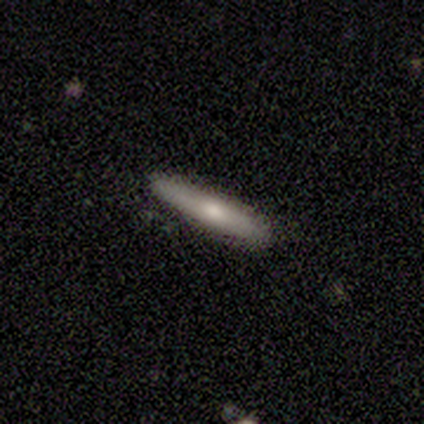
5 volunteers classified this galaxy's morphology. Smooth or featured? smooth (80%)
How rounded? cigar-shaped (100%)
Merging? none (80%)